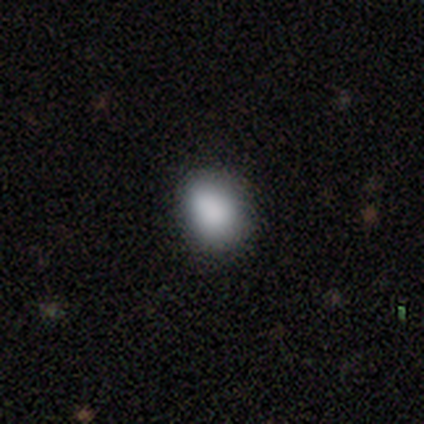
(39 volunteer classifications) Q: Smooth or featured?
A: smooth (85%); runner-up: star or artifact (10%)
Q: How rounded?
A: in between (52%); runner-up: round (48%)
Q: Merging?
A: none (49%); runner-up: minor disturbance (9%)